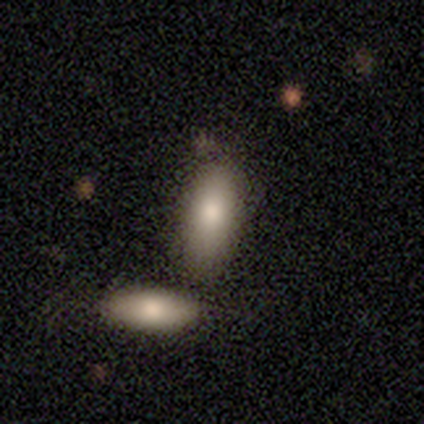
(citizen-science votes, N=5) smooth 80%, star or artifact 20%, featured or disk 0%. Down the decision tree: how rounded — in between (50%); merging — none (50%, tied with merger).